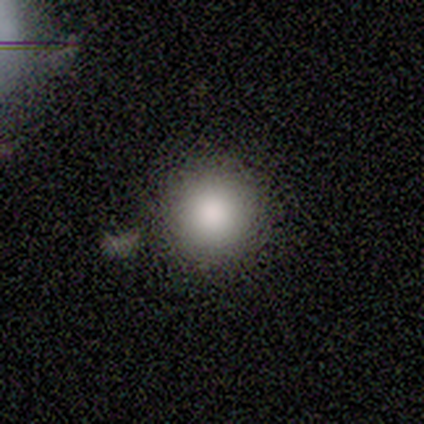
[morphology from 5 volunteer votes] smooth_or_featured: smooth (p=0.80) [alt: star or artifact p=0.20]
how_rounded: round (p=1.00)
merging: none (p=1.00)